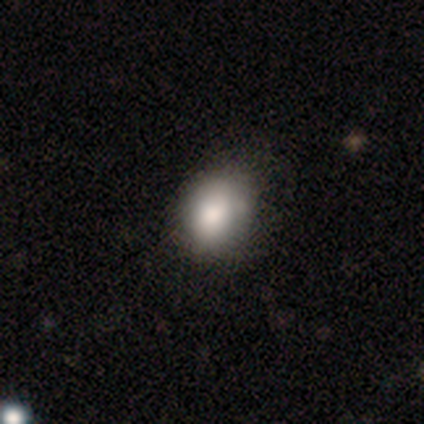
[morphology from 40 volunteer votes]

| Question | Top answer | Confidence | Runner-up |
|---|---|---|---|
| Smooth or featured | smooth | 80% | featured or disk (12%) |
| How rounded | in between | 56% | round (44%) |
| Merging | none | 51% | minor disturbance (22%) |